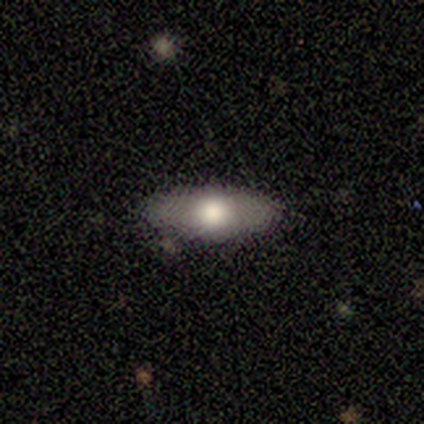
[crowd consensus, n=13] A smooth galaxy with no disk features (77%) that is in between round and cigar-shaped (70%). Merging: none (92%).